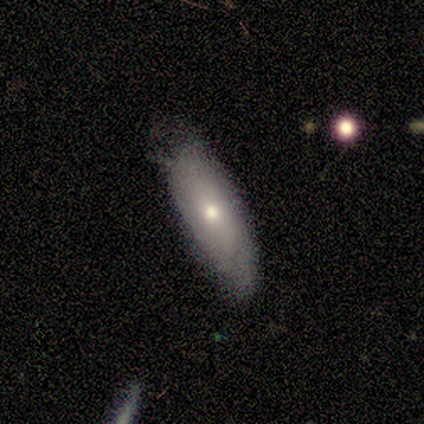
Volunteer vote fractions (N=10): Overall: smooth (70%; featured or disk 30%). How rounded: in between (86%). Merging: none (60%; minor disturbance 30%).